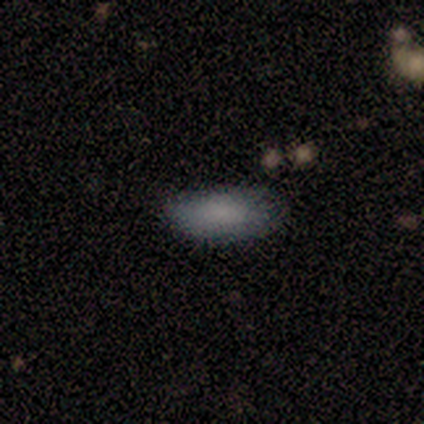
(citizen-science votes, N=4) smooth_or_featured: smooth (p=1.00)
how_rounded: in between (p=1.00)
merging: none (p=0.75) [alt: major disturbance p=0.25]